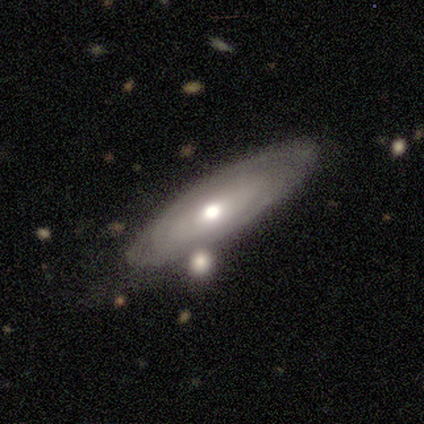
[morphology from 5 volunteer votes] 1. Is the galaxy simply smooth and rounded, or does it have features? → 80% featured or disk, 20% smooth, 0% star or artifact.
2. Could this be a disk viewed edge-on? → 75% no, 25% yes.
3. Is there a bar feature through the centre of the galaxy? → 100% no, 0% strong, 0% weak.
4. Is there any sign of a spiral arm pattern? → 67% yes, 33% no.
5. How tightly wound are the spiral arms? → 100% tight, 0% medium, 0% loose.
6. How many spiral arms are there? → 100% can't tell, 0% 1, 0% 2, 0% 3, 0% 4, 0% more than 4.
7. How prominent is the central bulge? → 67% large, 33% moderate, 0% dominant, 0% small, 0% none.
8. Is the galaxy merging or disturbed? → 60% none, 20% minor disturbance, 20% merger, 0% major disturbance.